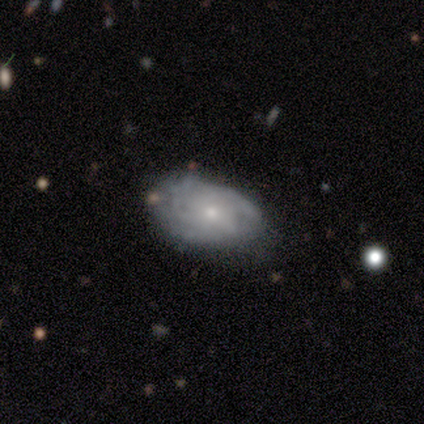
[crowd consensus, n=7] Morphology: type=featured or disk (86%); edge-on=no (100%); bar=no (100%); spiral arms=yes (67%); winding=tight (50%, tied with medium); arm count=can't tell (50%); bulge=small (67%); merging=none (71%).